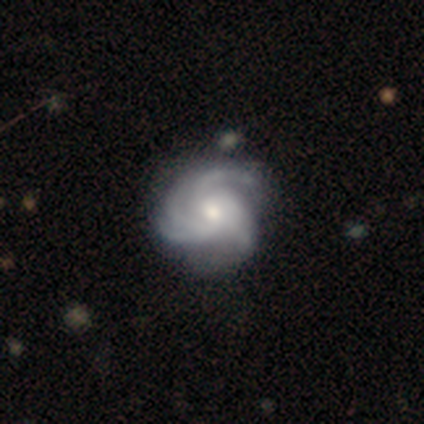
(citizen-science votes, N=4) smooth-or-featured: featured or disk: 75% | smooth: 25% | star or artifact: 0%
  disk-edge-on: no: 100% | yes: 0%
    bar: no: 100% | strong: 0% | weak: 0%
    has-spiral-arms: yes: 100% | no: 0%
      spiral-winding: medium: 67% | loose: 33% | tight: 0%
      spiral-arm-count: 3: 67% | 4: 33% | 1: 0% | 2: 0% | more than 4: 0% | can't tell: 0%
    bulge-size: moderate: 67% | small: 33% | dominant: 0% | large: 0% | none: 0%
  merging: minor disturbance: 75% | none: 25% | major disturbance: 0% | merger: 0%